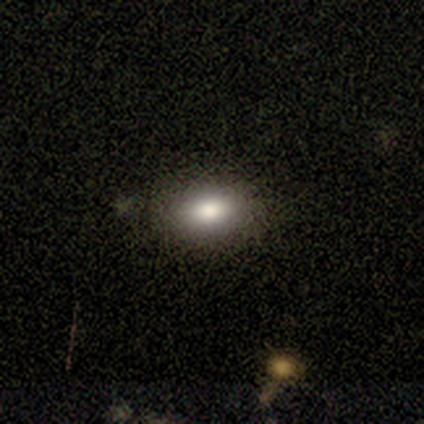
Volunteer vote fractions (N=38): Volunteers were most divided on "smooth or featured": smooth: 76%, featured or disk: 13%, star or artifact: 11%. More confident: how rounded — in between (93%); merging — none (91%).